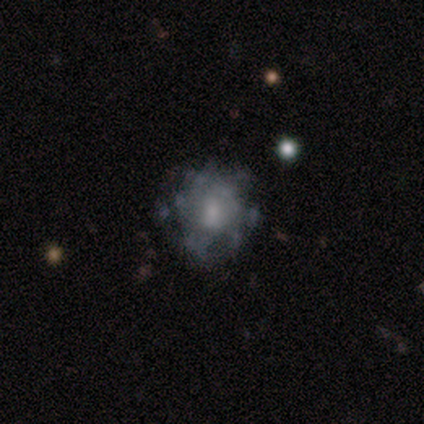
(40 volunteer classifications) Smooth or featured: featured or disk — 62% (smooth — 20%)
Edge-on disk: no — 100%
Bar: no — 80% (weak — 16%)
Spiral arms: no — 80% (yes — 20%)
Bulge size: moderate — 44% (small — 32%)
Merging: none — 70% (minor disturbance — 15%)